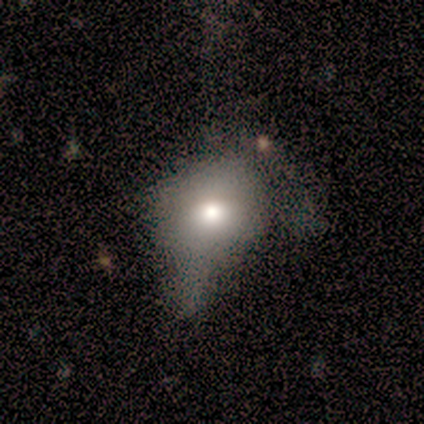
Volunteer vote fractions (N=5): This appears to be a smooth galaxy with no disk features (80%) that is round (75%). Merging: major disturbance (80%).